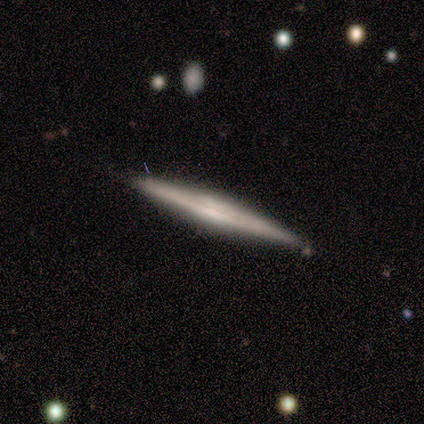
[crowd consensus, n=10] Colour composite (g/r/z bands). It shows a featured or disk galaxy (90%) viewed edge-on (100%) with a boxy central bulge (44%, tied with rounded). Merging: none (60%).